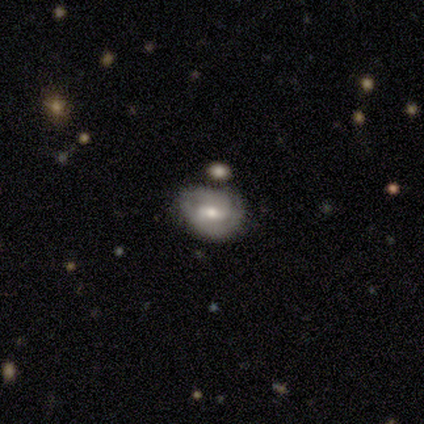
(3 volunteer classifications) Smooth or featured: featured or disk — 100%
Edge-on disk: no — 100%
Bar: weak — 67% (strong — 33%)
Spiral arms: yes — 100%
Spiral winding: medium — 100%
Spiral arm count: 2 — 67% (1 — 33%)
Bulge size: small — 67% (moderate — 33%)
Merging: none — 67% (major disturbance — 33%)